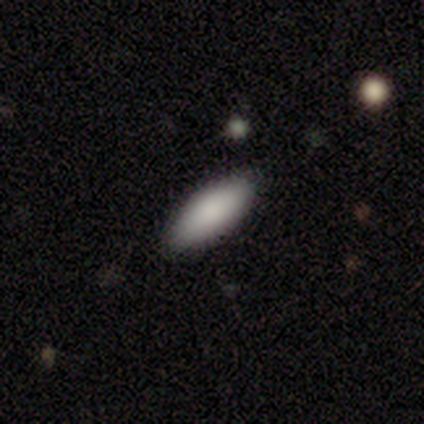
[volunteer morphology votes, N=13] smooth 100%, featured or disk 0%, star or artifact 0%. Down the decision tree: how rounded — in between (85%); merging — none (92%).